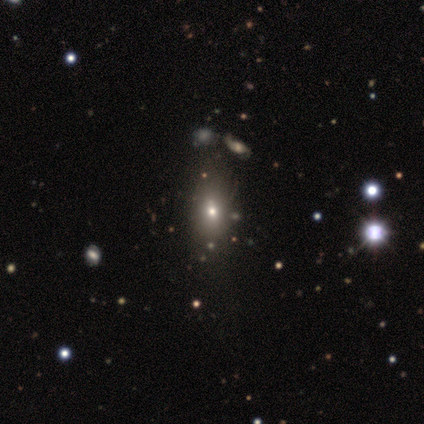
Smooth or featured? smooth (61%)
How rounded? in between (84%)
Merging? none (80%)